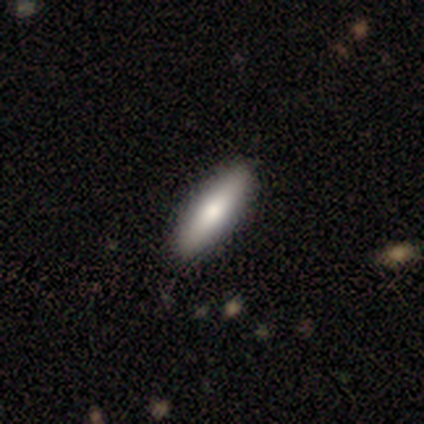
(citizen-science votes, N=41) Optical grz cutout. It shows a smooth galaxy with no disk features (71%) that is cigar-shaped (59%). Merging: none (74%).